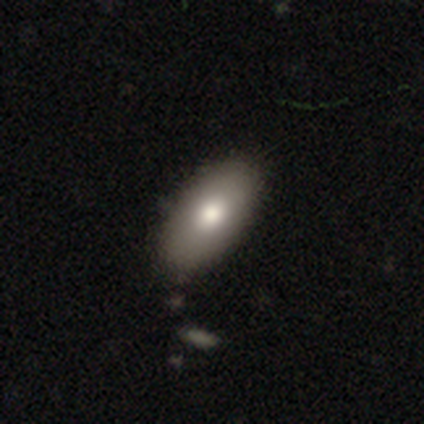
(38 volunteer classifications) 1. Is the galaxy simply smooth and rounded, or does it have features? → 76% smooth, 21% featured or disk, 3% star or artifact.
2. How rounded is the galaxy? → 100% in between, 0% round, 0% cigar-shaped.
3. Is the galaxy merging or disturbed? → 59% none, 11% minor disturbance, 8% merger, 5% major disturbance.